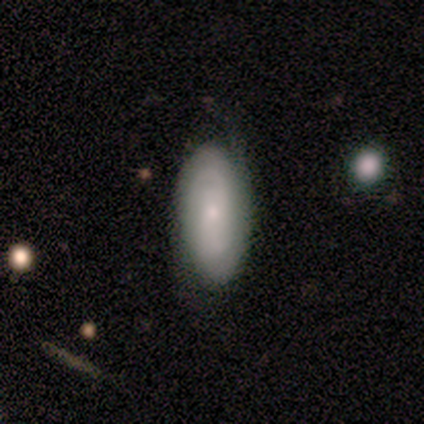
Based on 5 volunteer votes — Smooth or featured?
  - smooth: 60% *
  - featured or disk: 40%
  - star or artifact: 0%
How rounded?
  - in between: 100% *
  - round: 0%
  - cigar-shaped: 0%
Merging?
  - minor disturbance: 60% *
  - none: 40%
  - major disturbance: 0%
  - merger: 0%